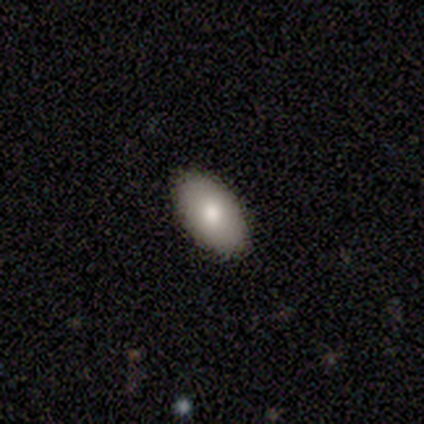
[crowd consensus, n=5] Smooth or featured: smooth — 100%
How rounded: in between — 100%
Merging: none — 100%